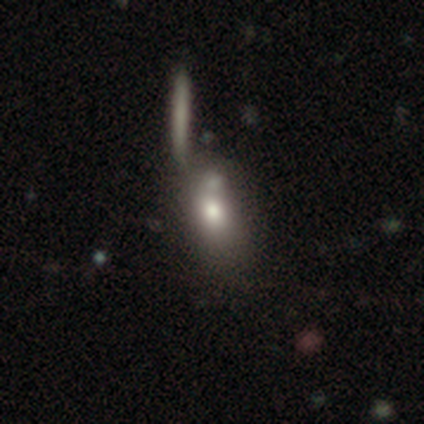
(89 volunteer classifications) Overall: smooth (70%). How rounded: in between (68%). Merging: none (39%; merger 35%).